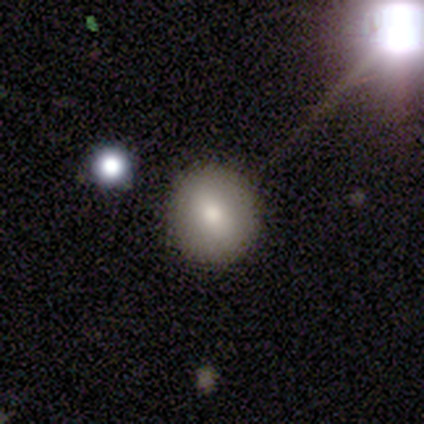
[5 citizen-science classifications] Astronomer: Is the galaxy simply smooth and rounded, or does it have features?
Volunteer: smooth — 60%.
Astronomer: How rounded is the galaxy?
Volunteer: round — 100%.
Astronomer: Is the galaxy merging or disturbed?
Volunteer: none — 75%.